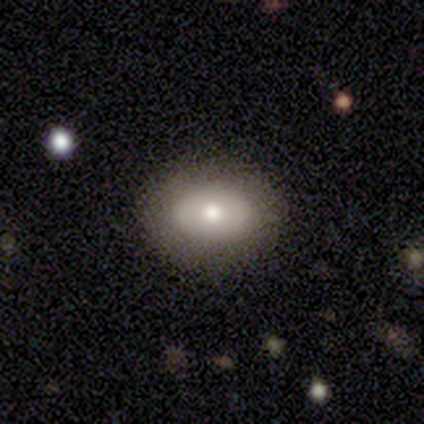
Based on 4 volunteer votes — Smooth or featured: smooth — 100%
How rounded: in between — 100%
Merging: none — 50% (tied with minor disturbance — 50%)